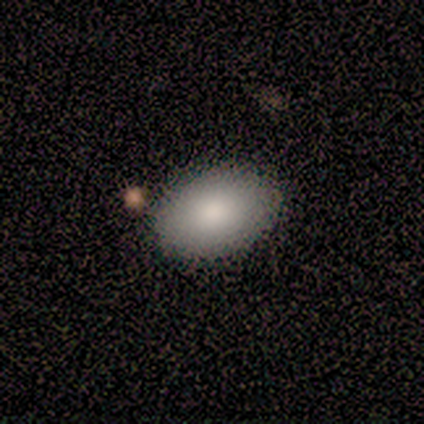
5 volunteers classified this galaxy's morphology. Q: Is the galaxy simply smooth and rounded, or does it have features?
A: smooth — 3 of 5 (60%).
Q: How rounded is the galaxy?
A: in between — 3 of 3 (100%).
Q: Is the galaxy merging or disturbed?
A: none — 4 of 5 (80%).